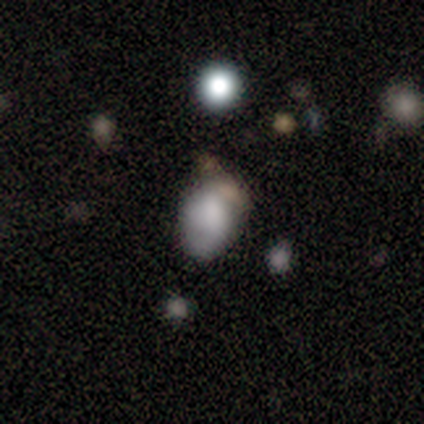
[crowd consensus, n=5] A smooth galaxy with no disk features (80%) that is in between round and cigar-shaped (100%).

Vote fractions:
- Smooth or featured? smooth: 80% / featured or disk: 20% / star or artifact: 0%
- How rounded? in between: 100% / round: 0% / cigar-shaped: 0%
- Merging? minor disturbance: 40% / none: 20% / major disturbance: 20% / merger: 20%